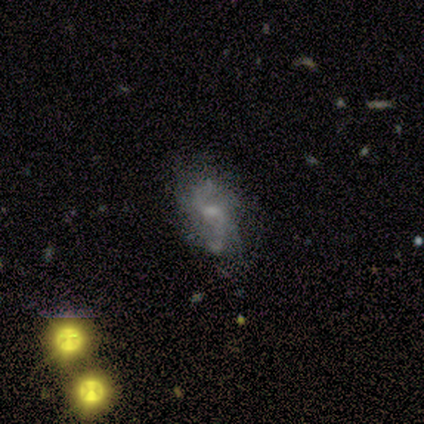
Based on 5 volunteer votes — Overall: featured or disk (80%). Edge-on disk: no (100%). Bar: weak (50%, tied with no). Spiral arms: yes (75%). Spiral arm count: 2 (67%; can't tell 33%). Spiral winding: tight (33%, tied with medium and loose). Bulge size: small (75%). Merging: none (100%).